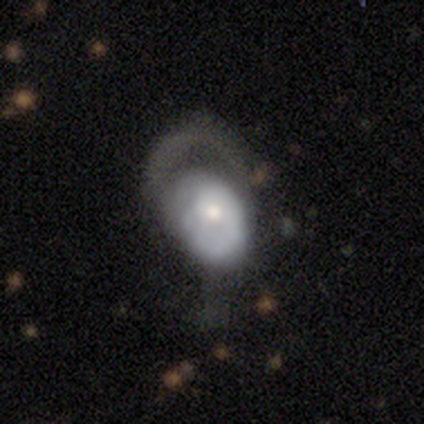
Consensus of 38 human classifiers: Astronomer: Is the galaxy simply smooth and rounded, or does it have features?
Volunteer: featured or disk — 61%.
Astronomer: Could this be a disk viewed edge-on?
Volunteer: no — 100%.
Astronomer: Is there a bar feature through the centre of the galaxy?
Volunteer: no — 78%.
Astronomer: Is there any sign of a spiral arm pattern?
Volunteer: yes — 57% (runner-up: no, 43%).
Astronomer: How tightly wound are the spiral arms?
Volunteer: medium — 46% (runner-up: tight, 31%).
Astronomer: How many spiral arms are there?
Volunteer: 1 — 69%.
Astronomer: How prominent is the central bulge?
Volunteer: moderate — 61%.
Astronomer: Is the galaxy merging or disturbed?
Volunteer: major disturbance — 67%.